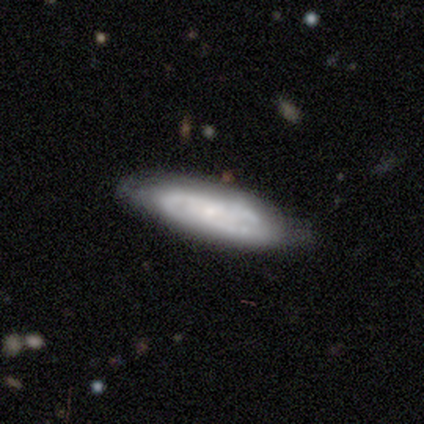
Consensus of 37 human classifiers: featured or disk 76%, smooth 24%, star or artifact 0%. Down the decision tree: edge-on disk — no (82%); bar — no (83%); spiral arms — yes (83%); spiral arm count — can't tell (68%); spiral winding — tight (63%); bulge size — small (74%); merging — none (68%).